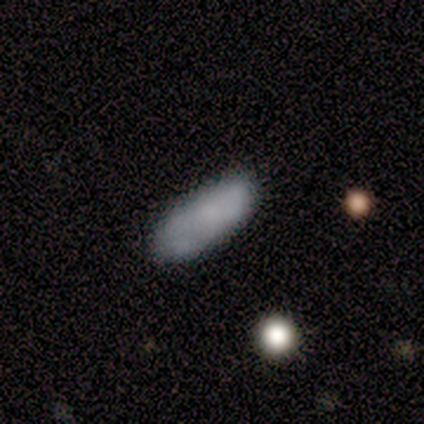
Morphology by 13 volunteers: Smooth or featured? smooth (92%)
How rounded? in between (100%)
Merging? none (85%)